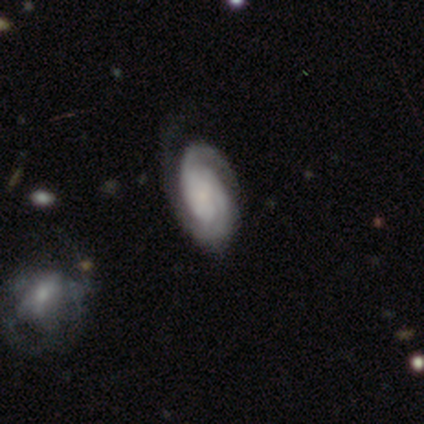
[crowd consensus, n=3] Volunteers were most divided on "bar": no: 67%, weak: 33%, strong: 0%. More confident: smooth or featured — featured or disk (100%); edge-on disk — no (100%); spiral winding — tight (100%); spiral arm count — 2 (100%); bulge size — small (100%); spiral arms — yes (67%); merging — none (67%).